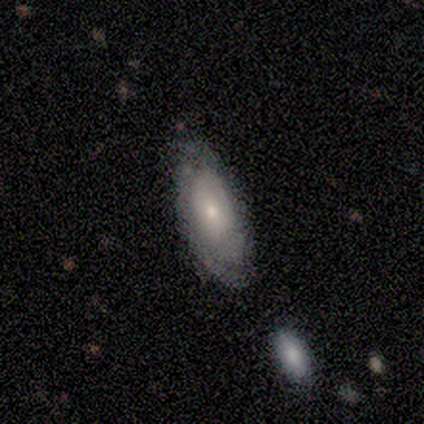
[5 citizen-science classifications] Smooth or featured: smooth — 60% (featured or disk — 40%)
How rounded: in between — 100%
Merging: minor disturbance — 60% (none — 20%)